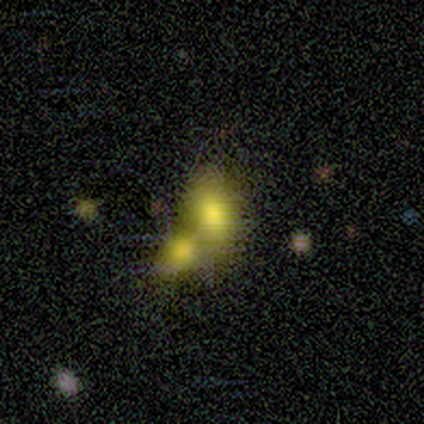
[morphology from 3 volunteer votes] This appears to be a smooth galaxy with no disk features (100%) that is in between round and cigar-shaped (67%). Merging: merger (100%).